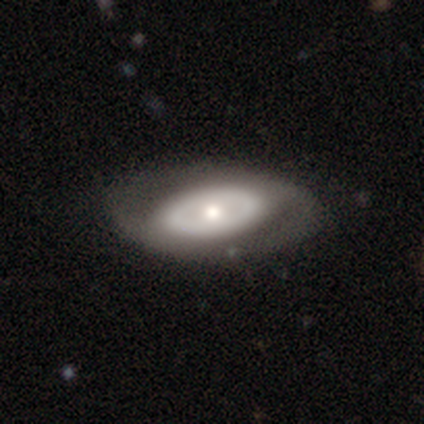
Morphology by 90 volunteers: This is possibly a featured or disk galaxy (51%). It is clearly not viewed edge-on (83%). Bar: clearly no (89%). Spiral arm pattern: clearly no (84%). Central bulge: possibly moderate (55%). Merging: likely none (73%).